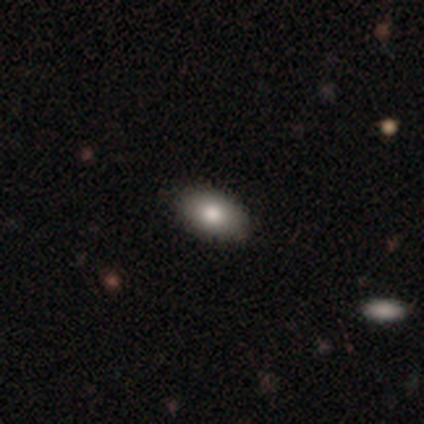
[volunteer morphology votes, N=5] Smooth or featured? smooth (100%)
How rounded? in between (100%)
Merging? none (60%)